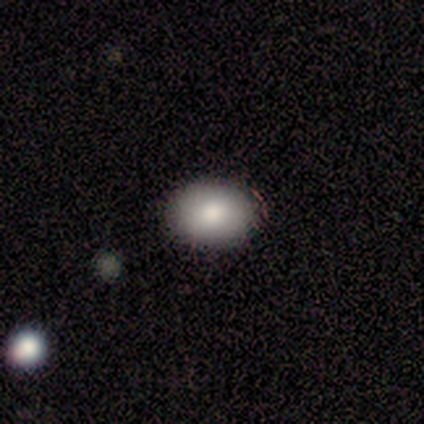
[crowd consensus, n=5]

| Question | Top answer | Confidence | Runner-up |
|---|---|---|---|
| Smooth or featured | smooth | 100% | — |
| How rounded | in between | 60% | round (40%) |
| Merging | none | 80% | minor disturbance (20%) |